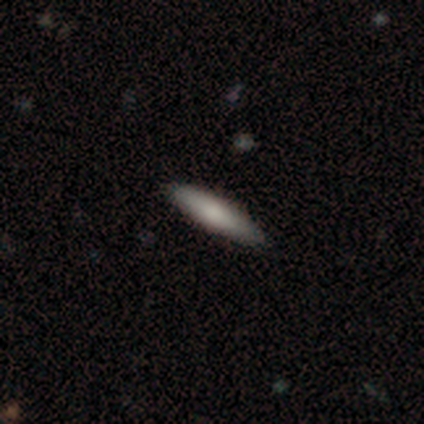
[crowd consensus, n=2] This appears to be a smooth galaxy with no disk features (50%, tied with featured or disk) that is cigar-shaped (100%). Merging: none (100%).